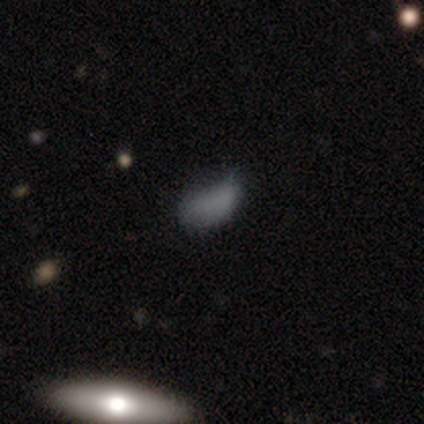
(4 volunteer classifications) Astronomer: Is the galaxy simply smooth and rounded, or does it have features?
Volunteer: smooth — 50%.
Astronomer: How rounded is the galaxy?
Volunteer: round — 50%, tied with in between at 50%.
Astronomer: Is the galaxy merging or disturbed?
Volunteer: none — 67%.